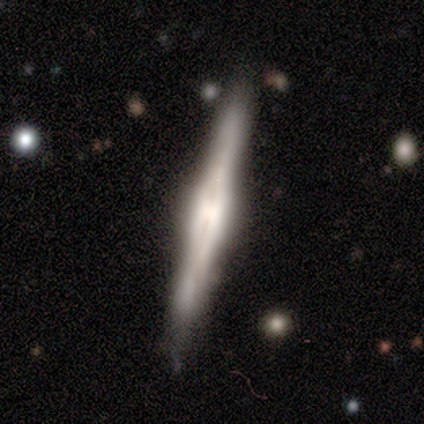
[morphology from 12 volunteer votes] Volunteers were most divided on "edge-on bulge": boxy: 58%, rounded: 42%, none: 0%. More confident: smooth or featured — featured or disk (100%); edge-on disk — yes (100%); merging — none (75%).